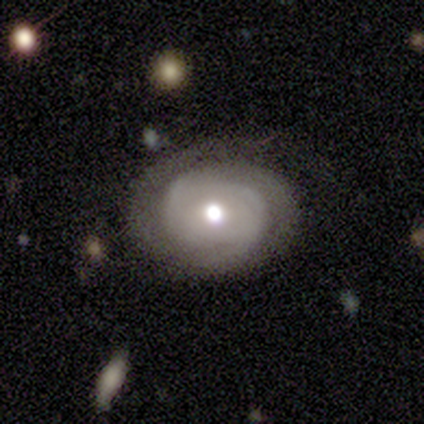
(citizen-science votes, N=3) Smooth or featured: featured or disk — 67% (smooth — 33%)
Edge-on disk: no — 100%
Bar: strong — 50% (tied with no — 50%)
Spiral arms: yes — 100%
Spiral winding: medium — 100%
Spiral arm count: 2 — 50% (tied with can't tell — 50%)
Bulge size: large — 50% (tied with moderate — 50%)
Merging: none — 33% (tied with major disturbance — 33%; merger — 33%)